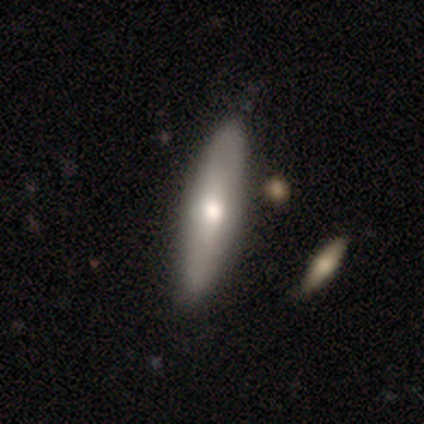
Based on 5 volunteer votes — smooth-or-featured: smooth: 40% (tied) | featured or disk: 40% (tied) | star or artifact: 20%
  how-rounded: in between: 100% | round: 0% | cigar-shaped: 0%
  merging: none: 75% | major disturbance: 25% | minor disturbance: 0% | merger: 0%